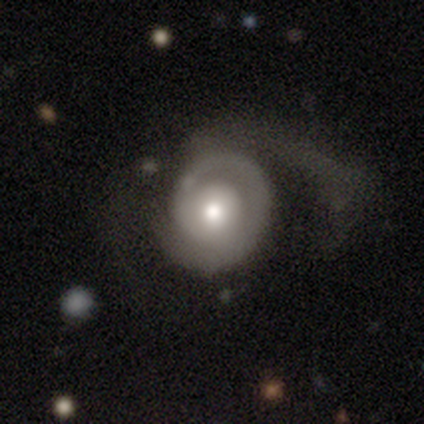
Smooth or featured? 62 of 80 (78%) said featured or disk. Edge-on disk? 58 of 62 (94%) said no. Bar? 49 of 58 (84%) said no. Spiral arms? 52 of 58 (90%) said yes. Spiral winding? 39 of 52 (75%) said tight. Spiral arm count? 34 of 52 (65%) said 1. Bulge size? 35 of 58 (60%) said moderate. Merging? 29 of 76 (38%) said major disturbance.